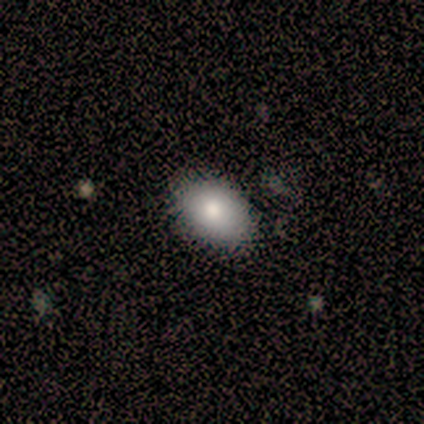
smooth-or-featured: smooth: 100% | featured or disk: 0% | star or artifact: 0%
  how-rounded: in between: 100% | round: 0% | cigar-shaped: 0%
  merging: none: 60% | minor disturbance: 20% | merger: 20% | major disturbance: 0%